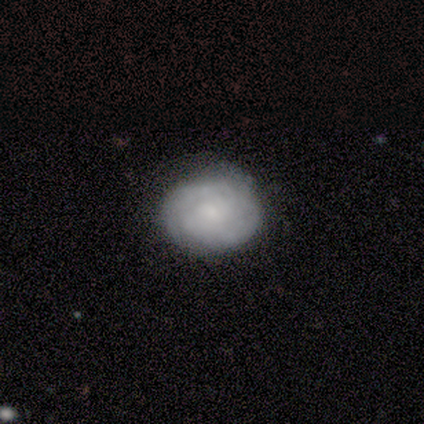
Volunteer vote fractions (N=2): Overall: smooth (50%, tied with featured or disk). How rounded: round (100%). Merging: none (100%).